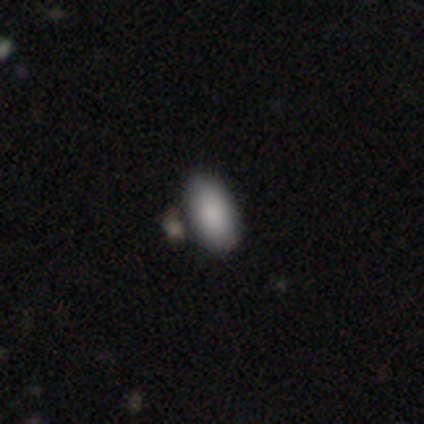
Smooth or featured? 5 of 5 (100%) said smooth. How rounded? 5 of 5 (100%) said in between. Merging? 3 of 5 (60%) said none.